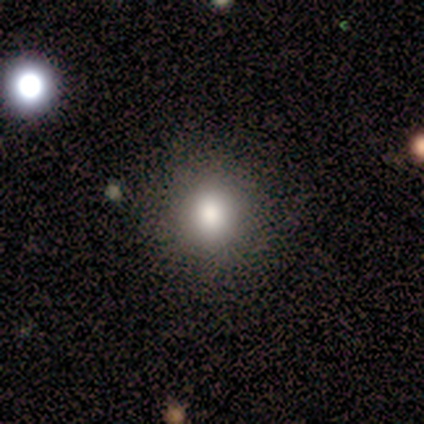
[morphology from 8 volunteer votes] Smooth or featured? 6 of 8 (75%) said smooth. How rounded? 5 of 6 (83%) said round. Merging? 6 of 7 (86%) said none.